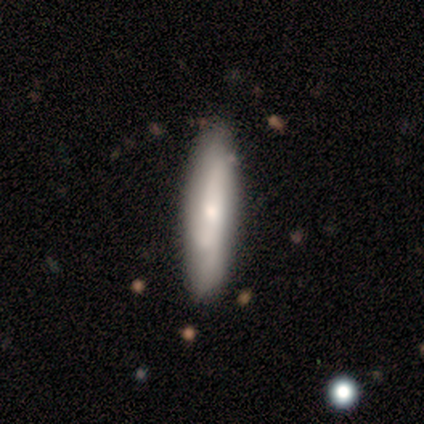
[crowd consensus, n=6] A smooth galaxy with no disk features (67%) that is cigar-shaped (75%). Merging: none (50%).